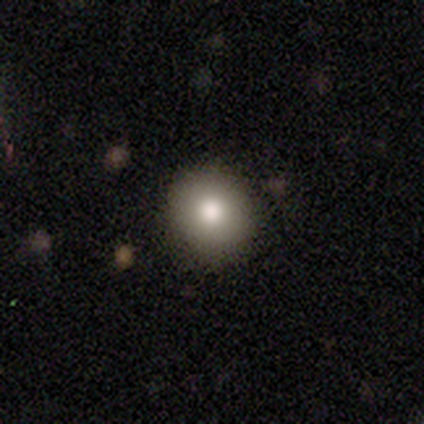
Q: Smooth or featured?
A: smooth (100%)
Q: How rounded?
A: round (100%)
Q: Merging?
A: none (100%)